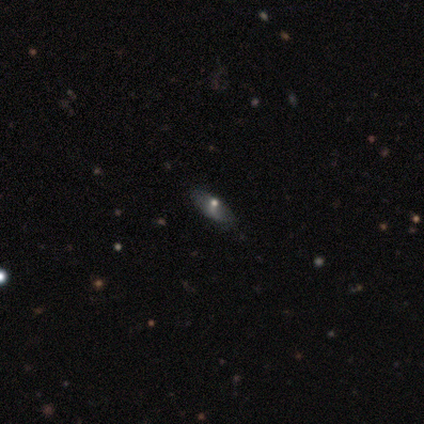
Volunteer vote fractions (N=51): This appears to be a featured or disk galaxy (51%) with no bar (80%), no spiral arms (80%) and a moderate central bulge (53%). Merging: none (67%).